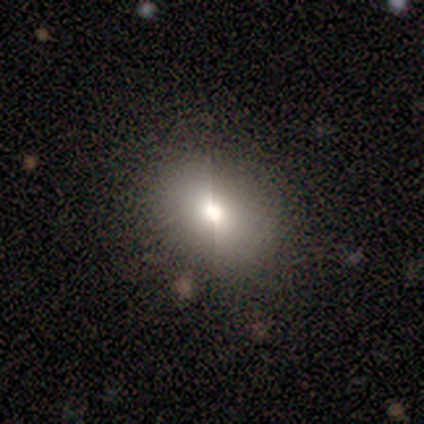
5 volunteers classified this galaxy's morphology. smooth-or-featured: smooth: 80% | featured or disk: 20% | star or artifact: 0%
  how-rounded: in between: 75% | round: 25% | cigar-shaped: 0%
  merging: none: 100% | minor disturbance: 0% | major disturbance: 0% | merger: 0%